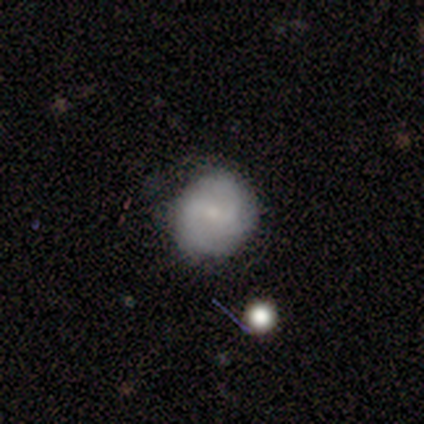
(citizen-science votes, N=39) Volunteers were most divided on "smooth or featured": smooth: 56%, featured or disk: 36%, star or artifact: 8%. More confident: how rounded — round (100%); merging — none (81%).